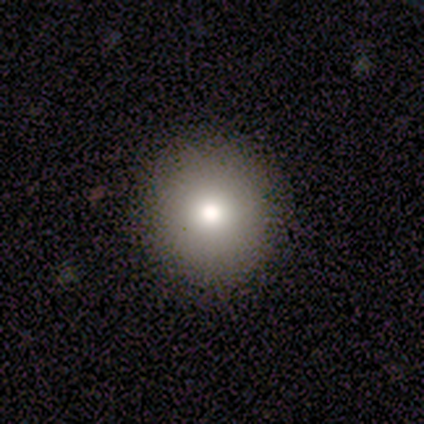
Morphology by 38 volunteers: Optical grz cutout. It shows a smooth galaxy with no disk features (92%) that is round (94%). Merging: none (92%).